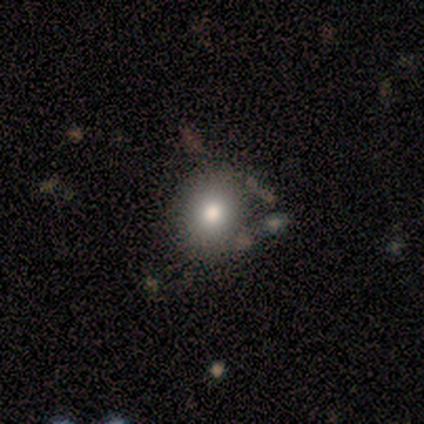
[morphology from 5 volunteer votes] smooth_or_featured: smooth (p=0.80) [alt: featured or disk p=0.20]
how_rounded: round (p=1.00)
merging: none (p=0.60) [alt: minor disturbance p=0.40]